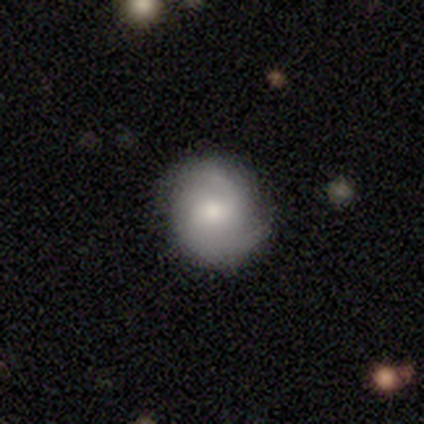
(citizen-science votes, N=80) smooth-or-featured: featured or disk: 64% | smooth: 34% | star or artifact: 2%
  disk-edge-on: no: 100% | yes: 0%
    bar: no: 57% | weak: 37% | strong: 6%
    has-spiral-arms: yes: 92% | no: 8%
      spiral-winding: medium: 45% | tight: 28% | loose: 28%
      spiral-arm-count: 2: 74% | can't tell: 15% | 1: 9% | 3: 2% | 4: 0% | more than 4: 0%
    bulge-size: moderate: 63% | small: 20% | large: 18% | dominant: 0% | none: 0%
  merging: none: 46% | minor disturbance: 12% | major disturbance: 1% | merger: 0%